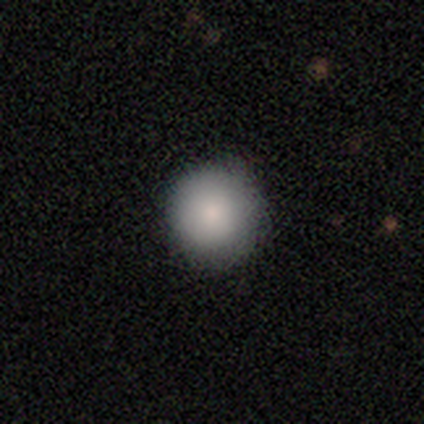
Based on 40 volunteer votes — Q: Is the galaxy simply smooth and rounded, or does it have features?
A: smooth — 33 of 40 (82%).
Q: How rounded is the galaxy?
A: round — 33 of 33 (100%).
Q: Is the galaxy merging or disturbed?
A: none — 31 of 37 (84%).